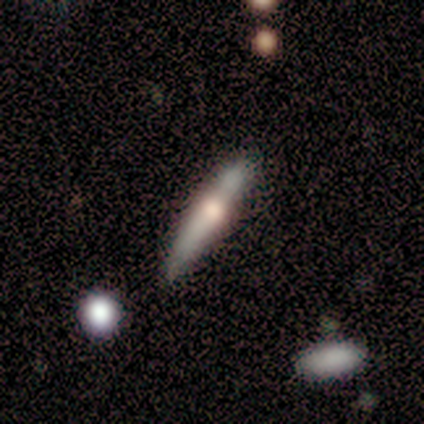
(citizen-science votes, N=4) Smooth or featured? 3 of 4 (75%) said featured or disk. Edge-on disk? 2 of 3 (67%) said yes. Edge-on bulge? 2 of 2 (100%) said rounded. Merging? 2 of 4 (50%) said none.